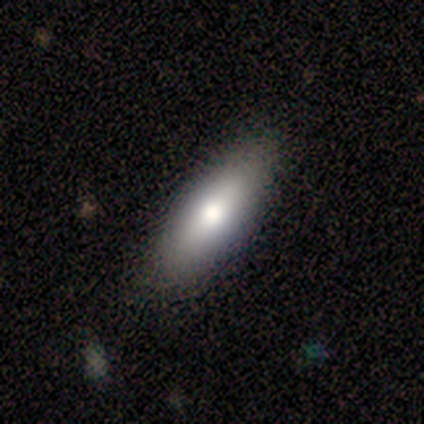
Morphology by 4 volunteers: Smooth or featured: smooth — 100%
How rounded: in between — 75% (cigar-shaped — 25%)
Merging: none — 50% (minor disturbance — 25%)